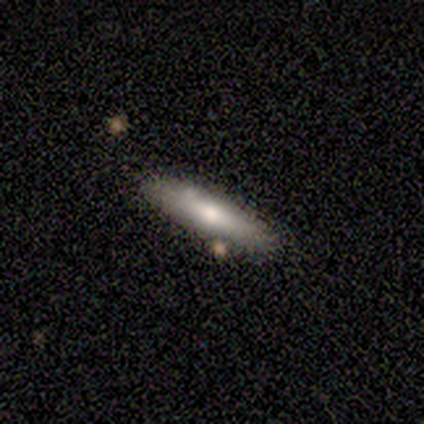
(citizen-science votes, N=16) Overall: smooth (62%; featured or disk 38%). How rounded: cigar-shaped (70%; in between 30%). Merging: none (75%).